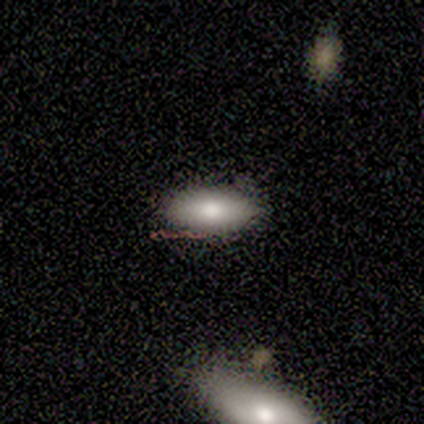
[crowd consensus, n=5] smooth-or-featured: smooth: 80% | featured or disk: 20% | star or artifact: 0%
  how-rounded: in between: 100% | round: 0% | cigar-shaped: 0%
  merging: none: 100% | minor disturbance: 0% | major disturbance: 0% | merger: 0%